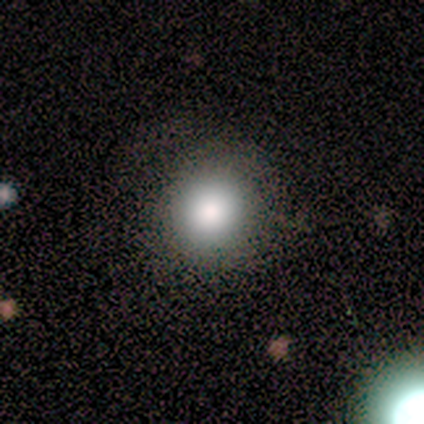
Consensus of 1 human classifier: Morphology: type=smooth (100%); roundness=round (100%); merging=minor disturbance (100%).